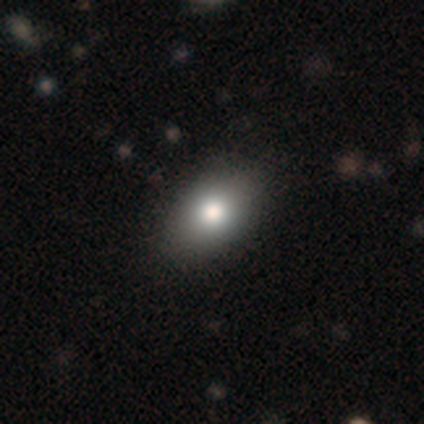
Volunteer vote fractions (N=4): Smooth or featured?
  - smooth: 100% *
  - featured or disk: 0%
  - star or artifact: 0%
How rounded?
  - round: 75% *
  - in between: 25%
  - cigar-shaped: 0%
Merging?
  - none: 100% *
  - minor disturbance: 0%
  - major disturbance: 0%
  - merger: 0%